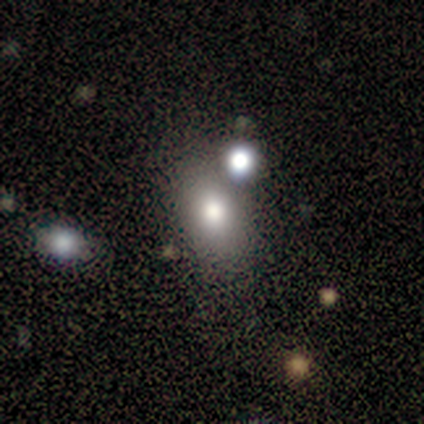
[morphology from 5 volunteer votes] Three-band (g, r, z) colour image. It shows a smooth galaxy with no disk features (80%) that is in between round and cigar-shaped (100%). Merging: minor disturbance (50%).